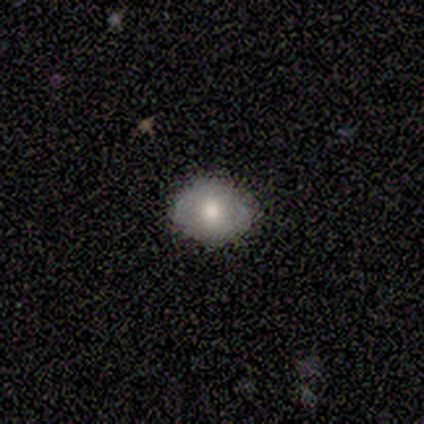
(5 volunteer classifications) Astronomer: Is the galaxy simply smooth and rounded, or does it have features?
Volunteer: smooth — 80%.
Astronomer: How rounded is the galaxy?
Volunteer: round — 50%, tied with in between at 50%.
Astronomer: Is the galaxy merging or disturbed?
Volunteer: none — 80%.